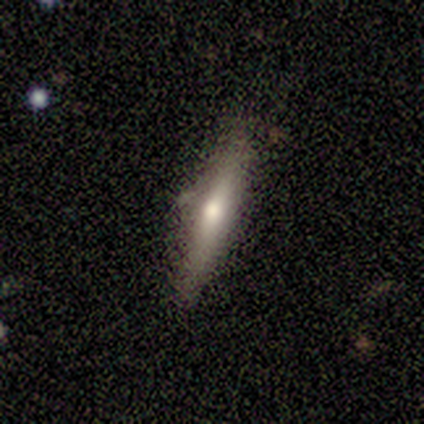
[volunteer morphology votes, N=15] Overall: featured or disk (60%; smooth 40%). Edge-on disk: yes (89%). Edge-on bulge: rounded (88%). Merging: none (87%).